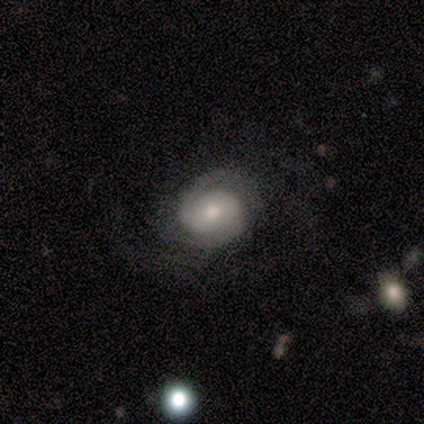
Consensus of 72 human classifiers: featured or disk 72%, smooth 19%, star or artifact 8%. Down the decision tree: edge-on disk — no (100%); bar — no (81%); spiral arms — yes (88%); spiral arm count — 2 (74%); spiral winding — tight (67%); bulge size — moderate (48%); merging — none (59%).